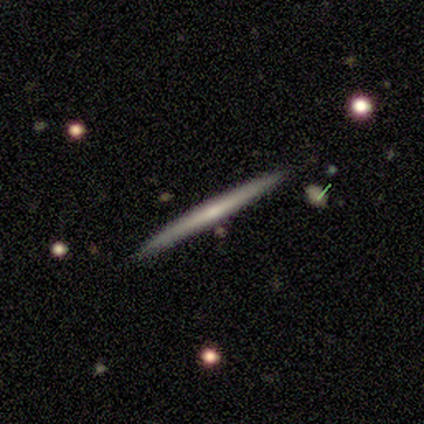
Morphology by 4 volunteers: A smooth galaxy with no disk features (50%, tied with featured or disk) that is cigar-shaped (100%). Merging: none (75%).